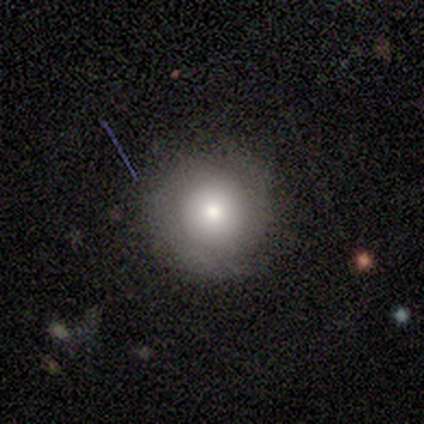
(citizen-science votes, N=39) A smooth galaxy with no disk features (69%) that is round (93%).

Vote fractions:
- Smooth or featured? smooth: 69% / featured or disk: 23% / star or artifact: 8%
- How rounded? round: 93% / in between: 7% / cigar-shaped: 0%
- Merging? none: 78% / minor disturbance: 11% / major disturbance: 8% / merger: 3%